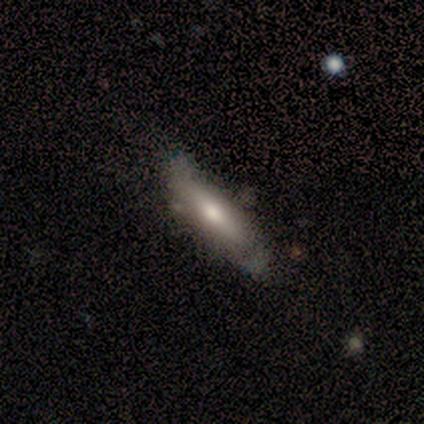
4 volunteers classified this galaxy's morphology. Smooth or featured? 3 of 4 (75%) said smooth. How rounded? 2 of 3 (67%) said in between. Merging? 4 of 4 (100%) said none.